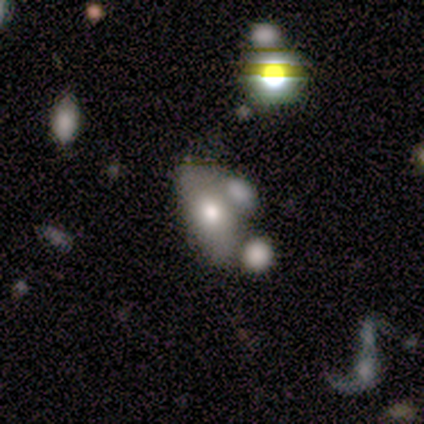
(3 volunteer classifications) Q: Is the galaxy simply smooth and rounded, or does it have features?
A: featured or disk — 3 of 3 (100%).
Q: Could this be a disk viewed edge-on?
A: no — 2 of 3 (67%).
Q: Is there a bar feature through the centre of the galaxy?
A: no — 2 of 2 (100%).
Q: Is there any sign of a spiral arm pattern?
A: no — 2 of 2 (100%).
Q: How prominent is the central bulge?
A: moderate — 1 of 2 (50%, tied with small).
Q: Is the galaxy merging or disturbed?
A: none — 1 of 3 (33%, tied with minor disturbance and merger).